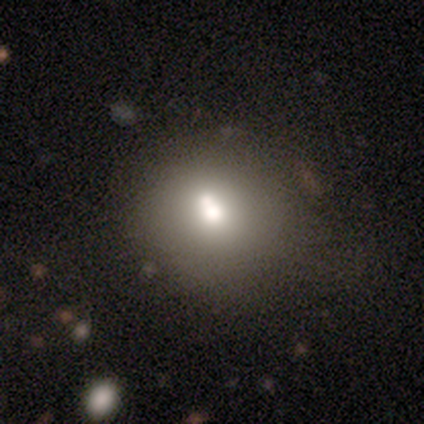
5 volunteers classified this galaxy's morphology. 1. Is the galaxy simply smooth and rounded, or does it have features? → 80% smooth, 20% star or artifact, 0% featured or disk.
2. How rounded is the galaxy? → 75% round, 25% in between, 0% cigar-shaped.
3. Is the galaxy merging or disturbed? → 50% none, 25% major disturbance, 25% merger, 0% minor disturbance.